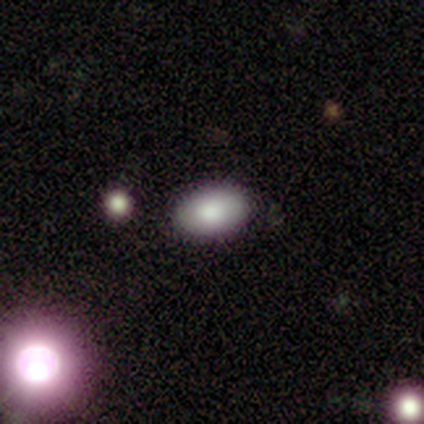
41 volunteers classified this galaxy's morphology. A smooth galaxy with no disk features (80%) that is in between round and cigar-shaped (94%). Merging: none (89%).